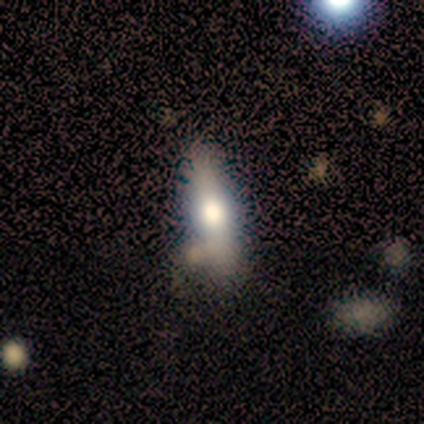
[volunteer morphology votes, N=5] Overall: featured or disk (80%). Edge-on disk: yes (50%, tied with no). Edge-on bulge: rounded (100%). Merging: none (80%).